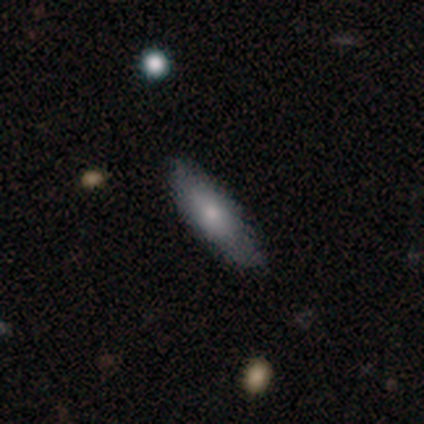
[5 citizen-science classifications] A smooth galaxy with no disk features (60%) that is in between round and cigar-shaped (100%).

Vote fractions:
- Smooth or featured? smooth: 60% / featured or disk: 40% / star or artifact: 0%
- How rounded? in between: 100% / round: 0% / cigar-shaped: 0%
- Merging? none: 80% / minor disturbance: 20% / major disturbance: 0% / merger: 0%